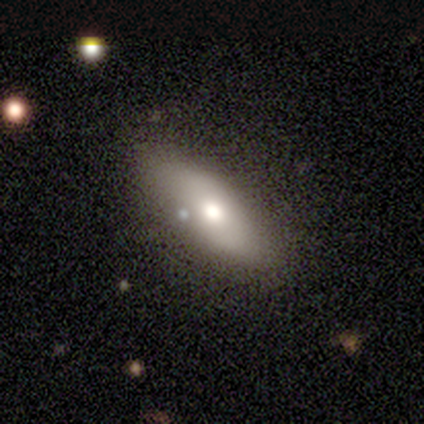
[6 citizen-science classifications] Smooth or featured: smooth — 67% (featured or disk — 17%)
How rounded: in between — 50% (tied with cigar-shaped — 50%)
Merging: none — 80% (minor disturbance — 20%)